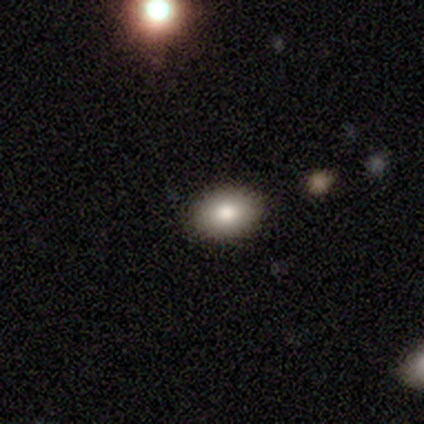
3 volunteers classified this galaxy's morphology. Smooth or featured?
  - smooth: 100% *
  - featured or disk: 0%
  - star or artifact: 0%
How rounded?
  - in between: 67% *
  - round: 33%
  - cigar-shaped: 0%
Merging?
  - none: 33% * (tied)
  - minor disturbance: 33% * (tied)
  - merger: 33% * (tied)
  - major disturbance: 0%